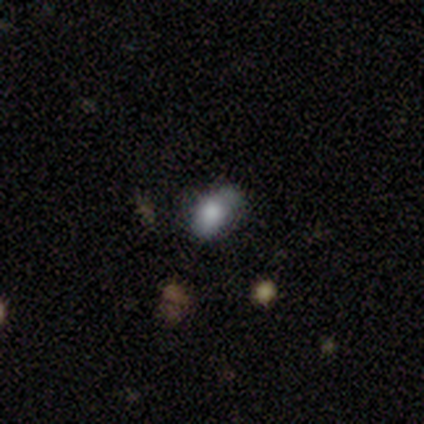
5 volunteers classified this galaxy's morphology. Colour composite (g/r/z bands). It shows a smooth galaxy with no disk features (60%) that is in between round and cigar-shaped (100%). Merging: minor disturbance (67%).